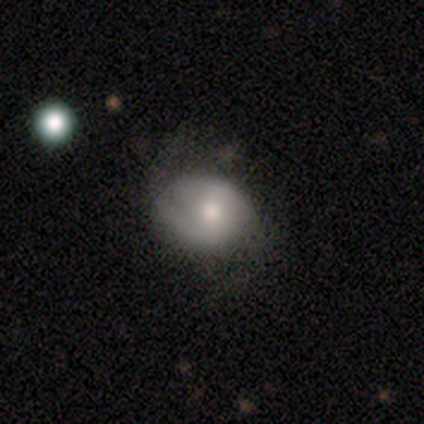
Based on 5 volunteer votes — This is likely a smooth galaxy (60%). How rounded: likely round (67%). Merging: likely none (60%).